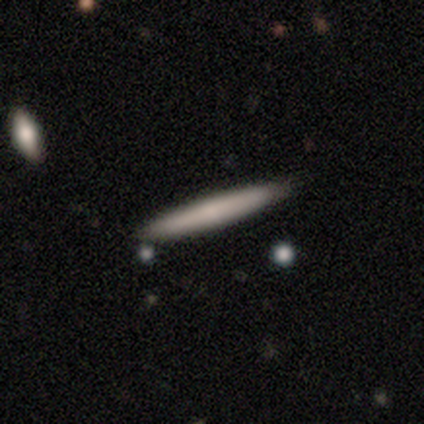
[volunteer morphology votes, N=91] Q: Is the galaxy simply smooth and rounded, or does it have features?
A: smooth — 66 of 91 (73%).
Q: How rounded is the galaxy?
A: cigar-shaped — 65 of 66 (98%).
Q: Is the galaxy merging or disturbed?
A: none — 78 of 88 (89%).